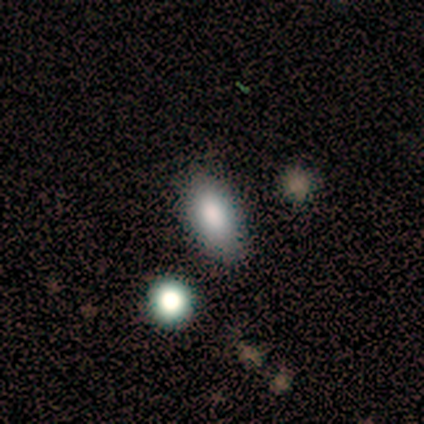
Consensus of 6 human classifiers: Overall: smooth (83%). How rounded: in between (100%). Merging: none (83%).